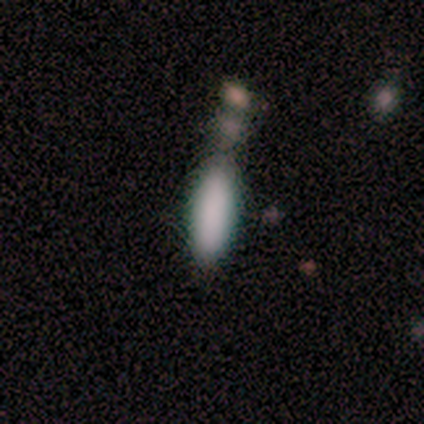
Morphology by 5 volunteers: Overall: smooth (80%). How rounded: in between (100%). Merging: none (25%, tied with minor disturbance, major disturbance and merger).